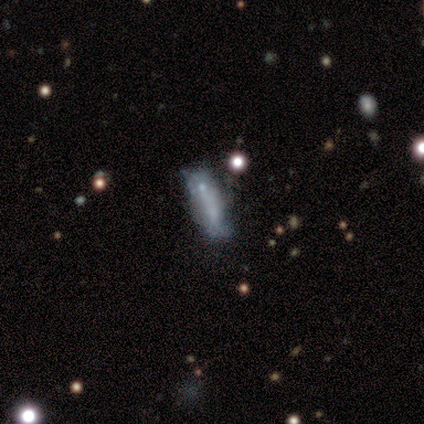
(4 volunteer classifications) Smooth or featured: smooth — 50% (tied with featured or disk — 50%)
How rounded: in between — 100%
Merging: none — 50% (minor disturbance — 25%)